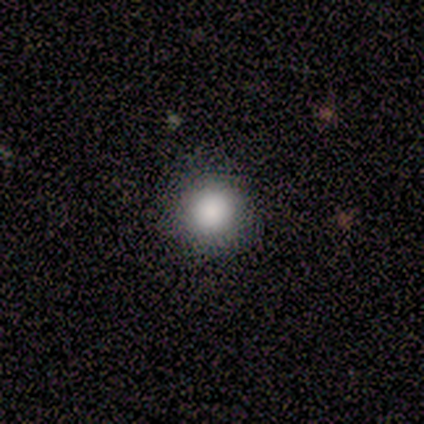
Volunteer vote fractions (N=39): Smooth or featured? smooth (77%)
How rounded? round (97%)
Merging? none (97%)